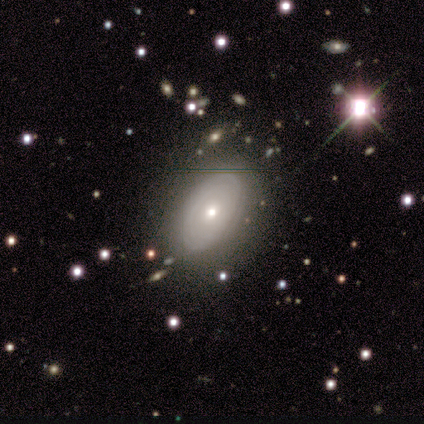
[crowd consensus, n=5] A featured or disk galaxy (100%) with no bar (50%), tight (67%) spiral arms (75%) and a small central bulge (75%). Merging: none (80%).